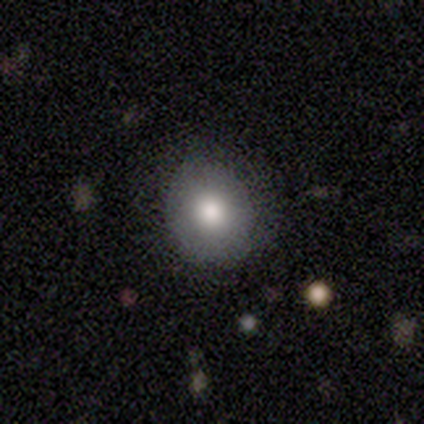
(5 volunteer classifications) A smooth galaxy with no disk features (100%) that is round (80%). Merging: none (80%).